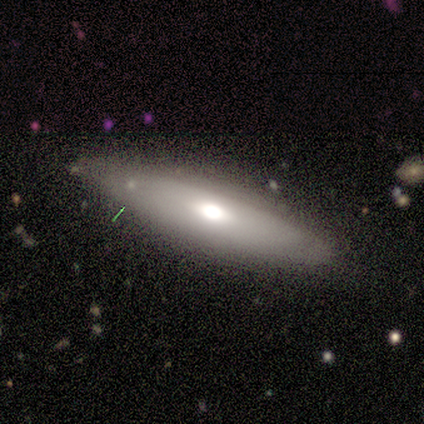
featured or disk 100%, smooth 0%, star or artifact 0%. Down the decision tree: edge-on disk — yes (100%); edge-on bulge — rounded (100%); merging — none (100%).